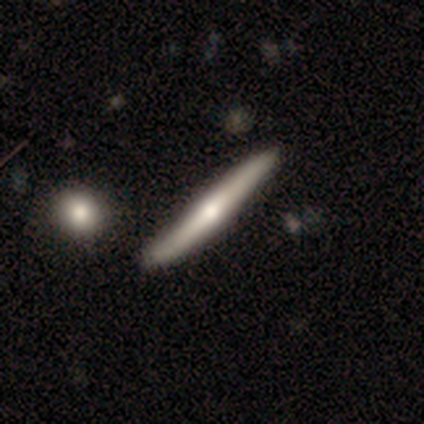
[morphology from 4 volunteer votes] Smooth or featured? 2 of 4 (50%, tied with featured or disk) said smooth. How rounded? 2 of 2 (100%) said cigar-shaped. Merging? 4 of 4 (100%) said none.